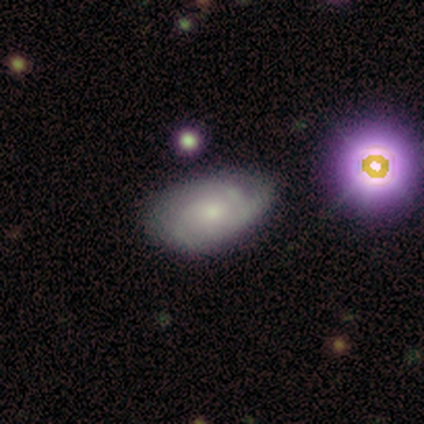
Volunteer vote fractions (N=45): This appears to be a featured or disk galaxy (73%) with no bar (94%), 3 (38%, tied with can't tell) tight (54%) spiral arms (75%) and a small central bulge (62%). Merging: none (44%).